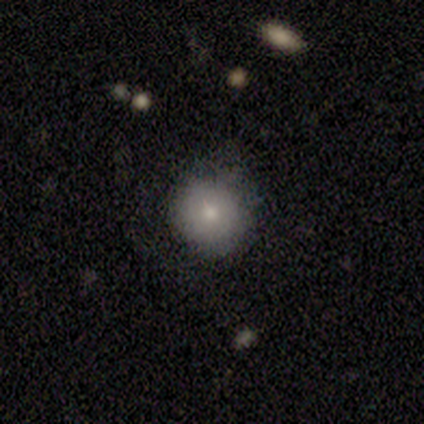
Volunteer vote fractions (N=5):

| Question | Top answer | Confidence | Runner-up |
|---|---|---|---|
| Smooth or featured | smooth | 80% | star or artifact (20%) |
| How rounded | round | 100% | — |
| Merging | none | 75% | major disturbance (25%) |